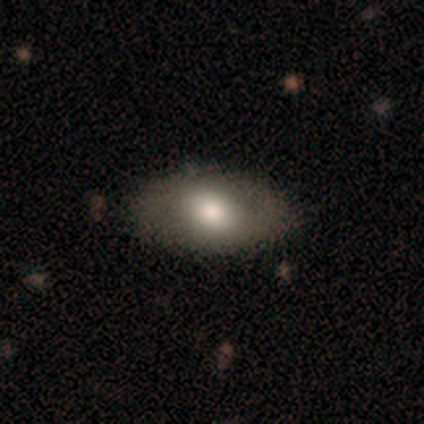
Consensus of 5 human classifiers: Smooth or featured?
  - smooth: 80% *
  - featured or disk: 20%
  - star or artifact: 0%
How rounded?
  - in between: 75% *
  - round: 25%
  - cigar-shaped: 0%
Merging?
  - none: 100% *
  - minor disturbance: 0%
  - major disturbance: 0%
  - merger: 0%